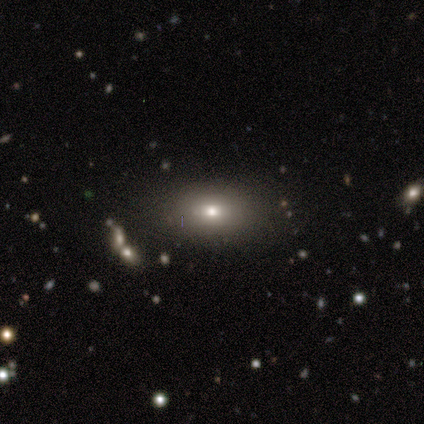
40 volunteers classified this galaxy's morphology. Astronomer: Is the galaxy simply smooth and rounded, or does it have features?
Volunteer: smooth — 70%.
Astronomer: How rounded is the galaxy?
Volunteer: in between — 86%.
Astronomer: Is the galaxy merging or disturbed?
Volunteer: none — 78%.